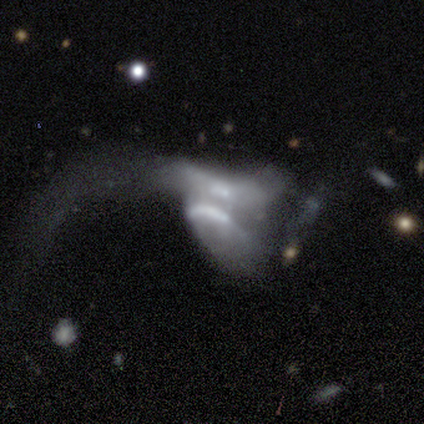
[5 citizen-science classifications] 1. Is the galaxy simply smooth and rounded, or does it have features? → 40% smooth (tied), 40% featured or disk (tied), 20% star or artifact.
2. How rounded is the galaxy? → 50% in between (tied), 50% cigar-shaped (tied), 0% round.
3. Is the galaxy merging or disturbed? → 75% major disturbance, 25% merger, 0% none, 0% minor disturbance.